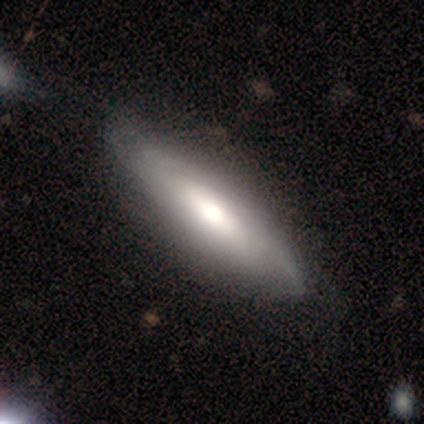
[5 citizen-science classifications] Smooth or featured: smooth — 60% (featured or disk — 20%)
How rounded: cigar-shaped — 67% (in between — 33%)
Merging: none — 50% (tied with minor disturbance — 50%)